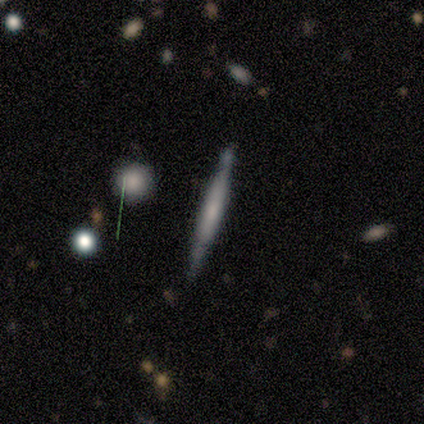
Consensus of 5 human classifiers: Smooth or featured?
  - smooth: 60% *
  - featured or disk: 40%
  - star or artifact: 0%
How rounded?
  - cigar-shaped: 100% *
  - round: 0%
  - in between: 0%
Merging?
  - none: 80% *
  - minor disturbance: 20%
  - major disturbance: 0%
  - merger: 0%